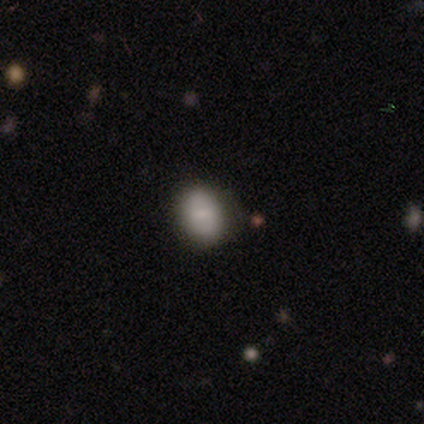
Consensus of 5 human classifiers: smooth_or_featured: smooth (p=0.60) [alt: featured or disk p=0.20]
how_rounded: in between (p=0.67) [alt: round p=0.33]
merging: none (p=1.00)